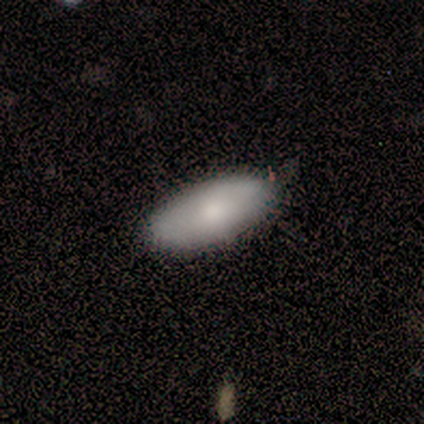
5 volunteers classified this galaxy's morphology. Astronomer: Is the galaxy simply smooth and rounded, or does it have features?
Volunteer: smooth — 80%.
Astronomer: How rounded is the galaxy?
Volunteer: in between — 100%.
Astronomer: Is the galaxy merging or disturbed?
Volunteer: none — 80%.